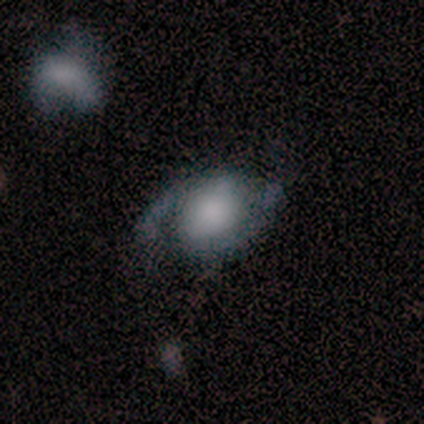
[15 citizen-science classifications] smooth_or_featured: smooth (p=0.53) [alt: featured or disk p=0.47]
how_rounded: in between (p=0.88) [alt: round p=0.12]
merging: none (p=0.60) [alt: minor disturbance p=0.20]